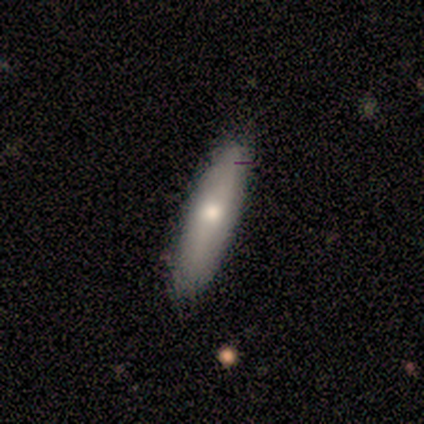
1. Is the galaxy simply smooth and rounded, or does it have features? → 100% smooth, 0% featured or disk, 0% star or artifact.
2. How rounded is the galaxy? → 80% cigar-shaped, 20% in between, 0% round.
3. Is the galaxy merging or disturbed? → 100% none, 0% minor disturbance, 0% major disturbance, 0% merger.